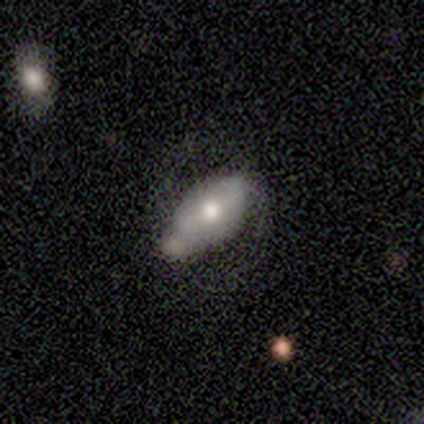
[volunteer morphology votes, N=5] This is likely a smooth galaxy (60%). How rounded: clearly in between (100%). Merging: marginally none (40%, tied with major disturbance).